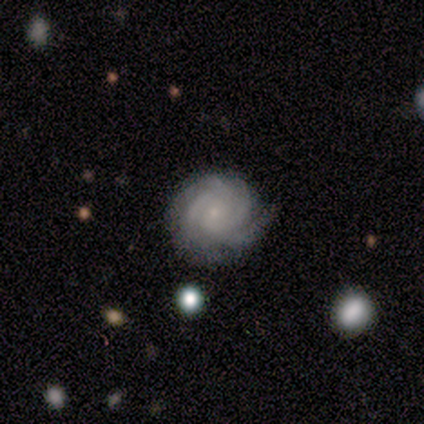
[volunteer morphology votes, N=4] This appears to be a featured or disk galaxy (100%) with no bar (75%), more than 4 (50%) tight (75%) spiral arms (100%) and a small central bulge (75%). Merging: none (100%).